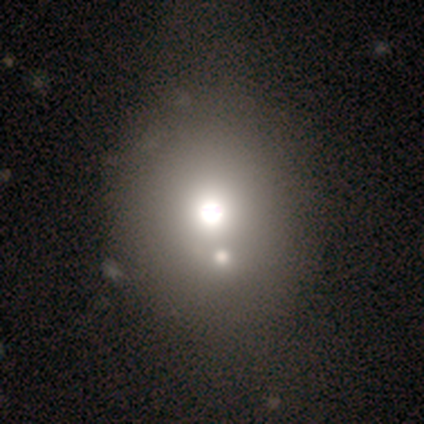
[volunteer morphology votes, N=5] smooth_or_featured: star or artifact (p=0.60) [alt: smooth p=0.40]